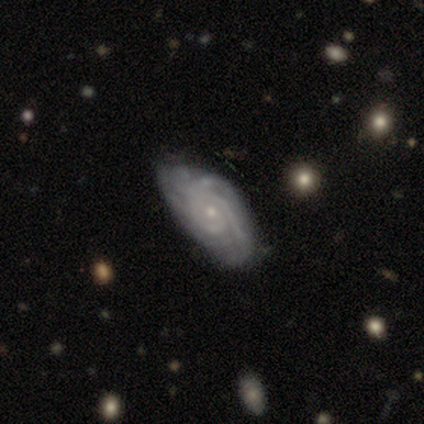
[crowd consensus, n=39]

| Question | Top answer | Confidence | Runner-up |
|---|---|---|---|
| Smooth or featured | featured or disk | 92% | smooth (8%) |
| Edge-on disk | no | 100% | — |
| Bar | no | 75% | weak (17%) |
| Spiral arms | yes | 92% | no (8%) |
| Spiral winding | tight | 79% | medium (18%) |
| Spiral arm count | can't tell | 39% | 3 (18%) |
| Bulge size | small | 78% | moderate (22%) |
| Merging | none | 49% | minor disturbance (18%) |